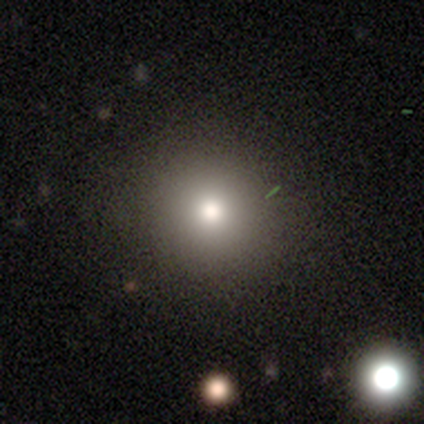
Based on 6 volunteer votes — Q: Smooth or featured?
A: smooth (83%); runner-up: star or artifact (17%)
Q: How rounded?
A: round (80%); runner-up: in between (20%)
Q: Merging?
A: none (80%); runner-up: minor disturbance (20%)